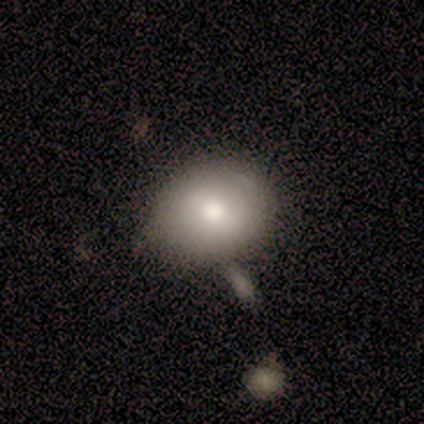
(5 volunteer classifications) smooth 100%, featured or disk 0%, star or artifact 0%. Down the decision tree: how rounded — in between (60%); merging — none (60%).